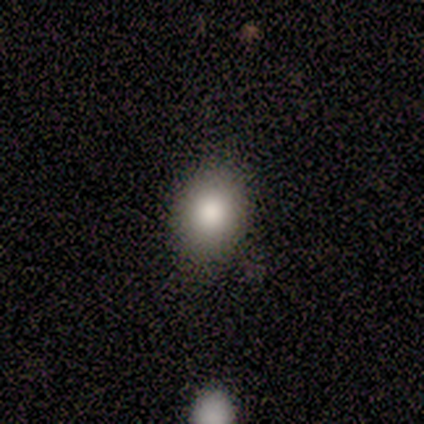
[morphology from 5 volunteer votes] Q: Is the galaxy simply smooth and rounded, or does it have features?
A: smooth — 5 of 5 (100%).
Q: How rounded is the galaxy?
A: in between — 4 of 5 (80%).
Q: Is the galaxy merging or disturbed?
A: none — 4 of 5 (80%).